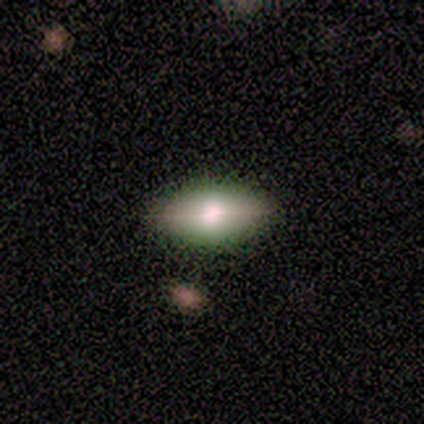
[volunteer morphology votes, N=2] type=smooth (50%, tied with featured or disk); roundness=in between (100%); merging=none (100%).